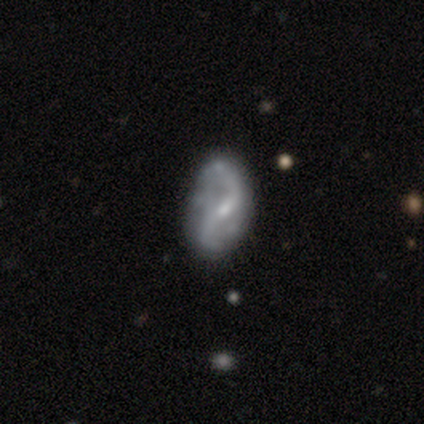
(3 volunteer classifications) smooth_or_featured: featured or disk (p=1.00)
disk_edge_on: no (p=0.67) [alt: yes p=0.33]
bar: weak (p=0.50) [tied with: no p=0.50]
has_spiral_arms: yes (p=1.00)
spiral_winding: medium (p=0.50) [tied with: loose p=0.50]
spiral_arm_count: 2 (p=1.00)
bulge_size: small (p=0.50) [tied with: none p=0.50]
merging: none (p=0.67) [alt: major disturbance p=0.33]